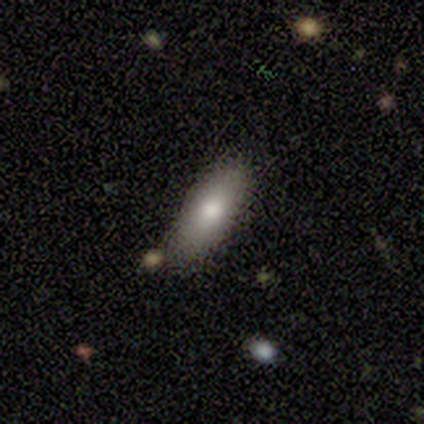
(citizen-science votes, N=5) A smooth galaxy with no disk features (100%) that is in between round and cigar-shaped (100%).

Vote fractions:
- Smooth or featured? smooth: 100% / featured or disk: 0% / star or artifact: 0%
- How rounded? in between: 100% / round: 0% / cigar-shaped: 0%
- Merging? none: 80% / minor disturbance: 20% / major disturbance: 0% / merger: 0%